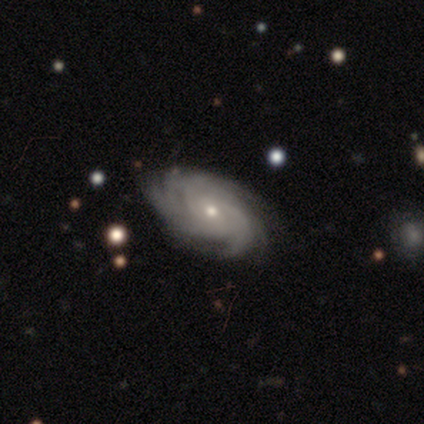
Q: Smooth or featured?
A: featured or disk (100%)
Q: Edge-on disk?
A: no (100%)
Q: Bar?
A: no (83%); runner-up: weak (17%)
Q: Spiral arms?
A: yes (100%)
Q: Spiral winding?
A: tight (83%); runner-up: medium (17%)
Q: Spiral arm count?
A: 3 (33%); tied with: more than 4 (33%)
Q: Bulge size?
A: small (83%); runner-up: moderate (17%)
Q: Merging?
A: none (83%); runner-up: minor disturbance (17%)